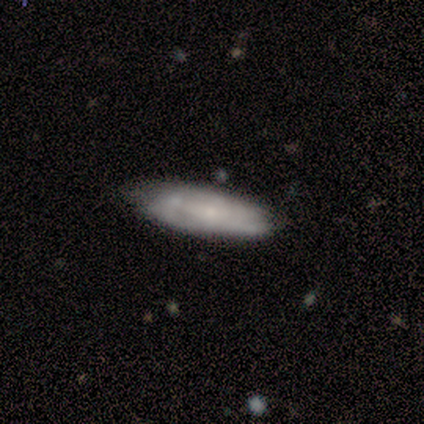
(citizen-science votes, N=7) This is likely a featured or disk galaxy (71%). It is clearly not viewed edge-on (80%). Bar: possibly weak (50%). Spiral arm pattern: likely no (75%). Central bulge: clearly small (100%). Merging: likely none (71%).